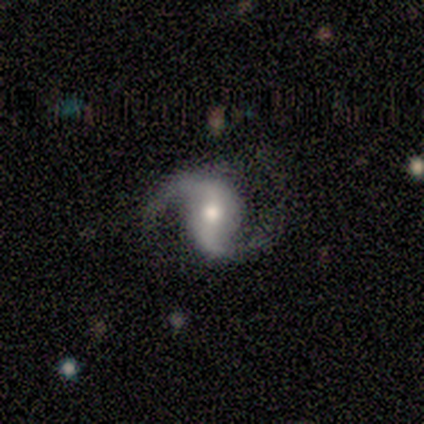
A featured or disk galaxy (100%) with no bar (50%), 2 (100%) loose (67%) spiral arms (75%) and a moderate central bulge (50%, tied with small).

Vote fractions:
- Smooth or featured? featured or disk: 100% / smooth: 0% / star or artifact: 0%
- Edge-on disk? no: 100% / yes: 0%
- Bar? no: 50% / strong: 25% / weak: 25%
- Spiral arms? yes: 75% / no: 25%
- Spiral winding? loose: 67% / medium: 33% / tight: 0%
- Spiral arm count? 2: 100% / 1: 0% / 3: 0% / 4: 0% / more than 4: 0% / can't tell: 0%
- Bulge size? moderate: 50% (tied) / small: 50% (tied) / dominant: 0% / large: 0% / none: 0%
- Merging? minor disturbance: 75% / none: 25% / major disturbance: 0% / merger: 0%